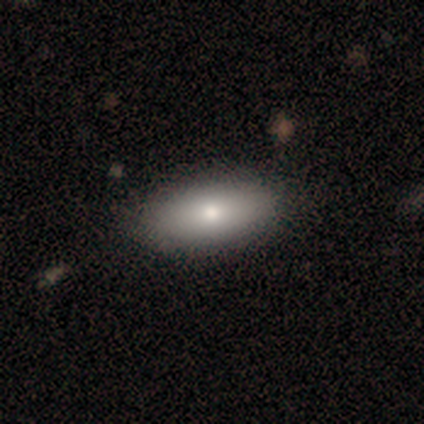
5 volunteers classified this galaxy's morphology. Smooth or featured? smooth (100%)
How rounded? in between (100%)
Merging? none (100%)